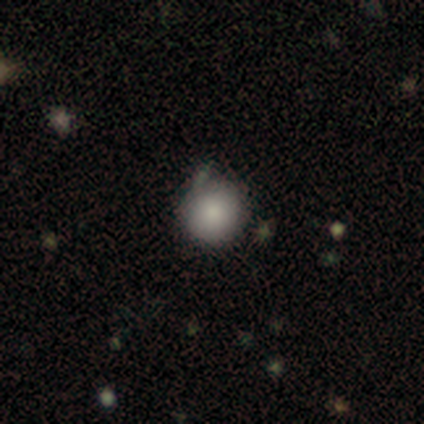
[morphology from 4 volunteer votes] Q: Smooth or featured?
A: smooth (75%); runner-up: star or artifact (25%)
Q: How rounded?
A: round (100%)
Q: Merging?
A: none (67%); runner-up: minor disturbance (33%)